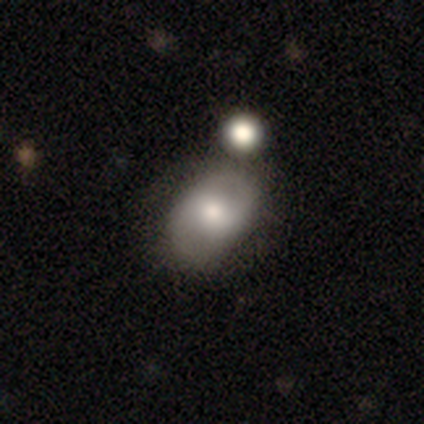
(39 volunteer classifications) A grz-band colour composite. It shows a featured or disk galaxy (56%) with a weak bar (59%), 2 (82%) loose (47%) spiral arms (77%) and a moderate central bulge (64%). Merging: none (53%).